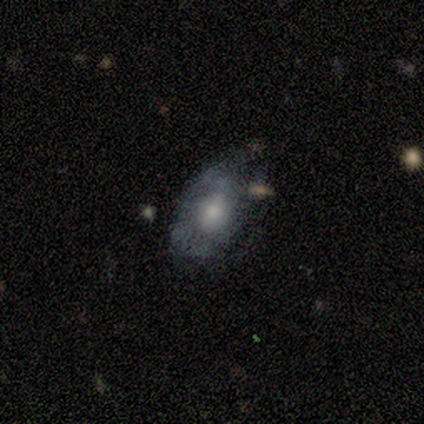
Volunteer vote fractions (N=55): This appears to be a featured or disk galaxy (76%) with no bar (62%), medium (45%) spiral arms (55%) and a moderate central bulge (60%). Merging: none (49%).